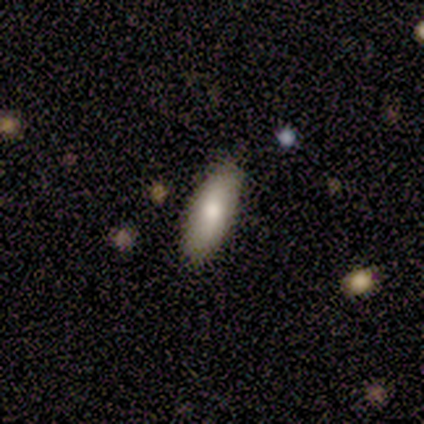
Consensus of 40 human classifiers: A smooth galaxy with no disk features (62%) that is in between round and cigar-shaped (68%). Merging: none (94%).